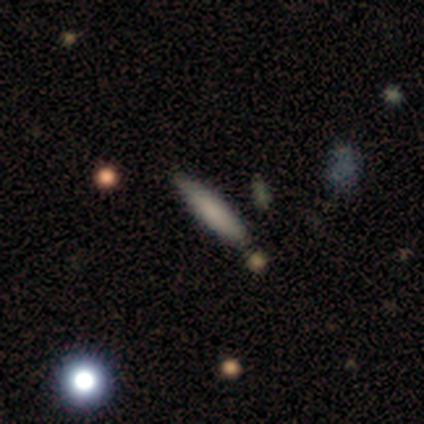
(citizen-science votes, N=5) smooth-or-featured: smooth: 80% | featured or disk: 20% | star or artifact: 0%
  how-rounded: cigar-shaped: 100% | round: 0% | in between: 0%
  merging: none: 100% | minor disturbance: 0% | major disturbance: 0% | merger: 0%